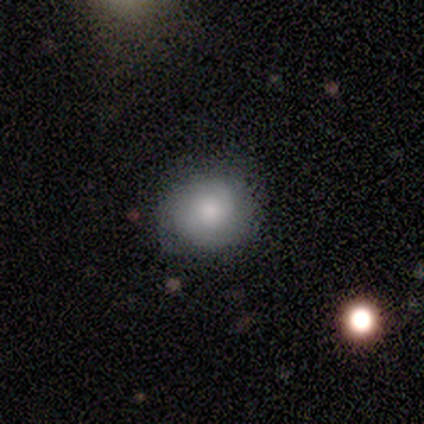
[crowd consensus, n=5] Volunteers were most divided on "how rounded": round: 75%, in between: 25%, cigar-shaped: 0%. More confident: smooth or featured — smooth (80%); merging — none (80%).